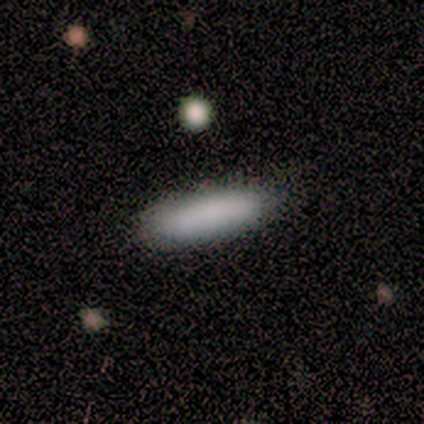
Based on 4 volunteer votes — This is clearly a smooth galaxy (100%). How rounded: possibly in between (50%, tied with cigar-shaped). Merging: likely none (75%).